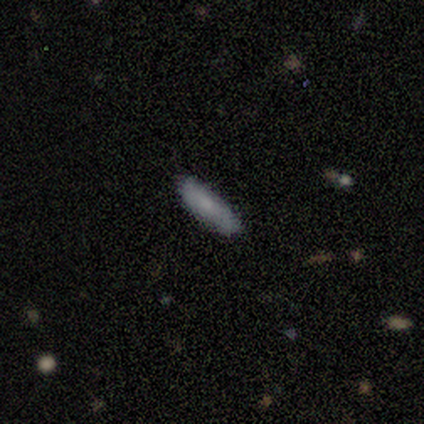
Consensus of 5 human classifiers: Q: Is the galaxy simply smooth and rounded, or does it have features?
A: smooth — 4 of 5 (80%).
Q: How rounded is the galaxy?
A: in between — 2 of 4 (50%, tied with cigar-shaped).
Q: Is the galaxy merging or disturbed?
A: none — 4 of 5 (80%).